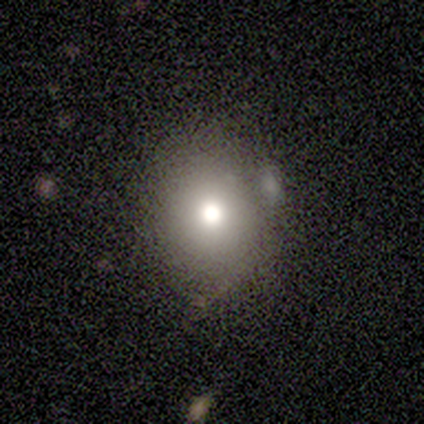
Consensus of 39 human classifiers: Smooth or featured? smooth (72%)
How rounded? round (71%)
Merging? none (57%)